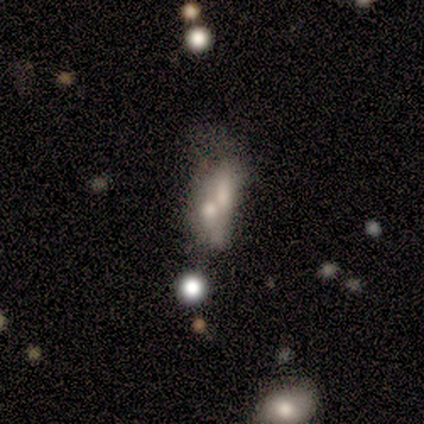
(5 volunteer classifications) This appears to be a smooth galaxy with no disk features (60%) that is cigar-shaped (67%). Merging: merger (60%).